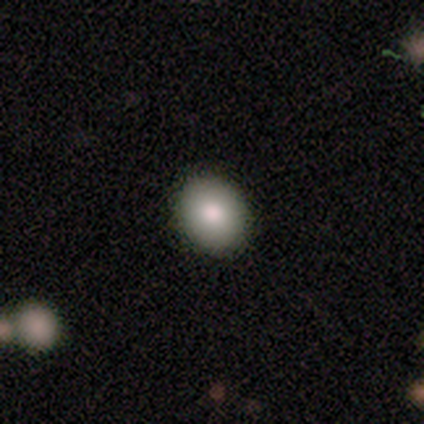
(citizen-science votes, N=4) A smooth galaxy with no disk features (50%, tied with featured or disk) that is round (100%). Merging: none (100%).